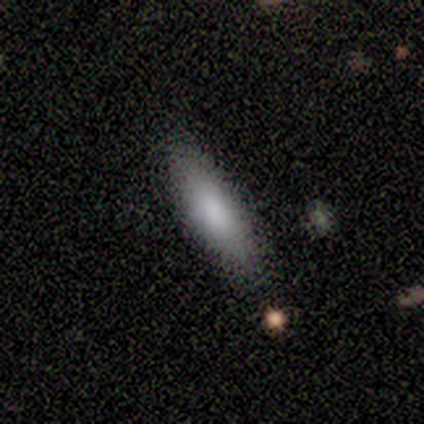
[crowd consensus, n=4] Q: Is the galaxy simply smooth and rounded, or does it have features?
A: smooth — 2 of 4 (50%, tied with featured or disk).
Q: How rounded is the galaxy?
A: in between — 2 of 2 (100%).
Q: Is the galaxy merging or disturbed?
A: none — 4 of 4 (100%).